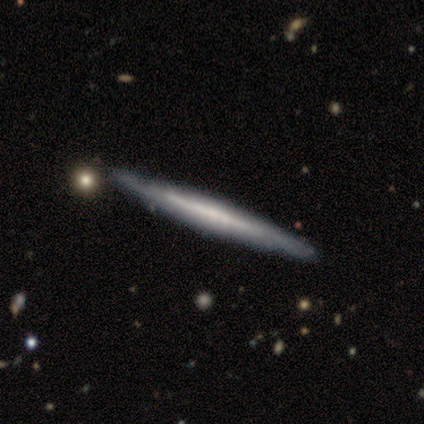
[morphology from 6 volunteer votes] smooth_or_featured: smooth (p=0.50) [tied with: featured or disk p=0.50]
how_rounded: cigar-shaped (p=1.00)
merging: none (p=0.50) [alt: minor disturbance p=0.33]